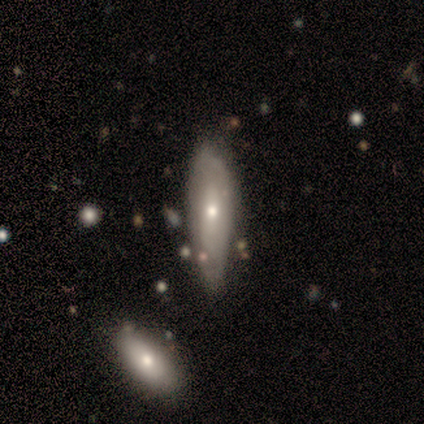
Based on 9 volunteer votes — Overall: smooth (44%, tied with featured or disk). How rounded: cigar-shaped (75%). Merging: none (50%, tied with minor disturbance).